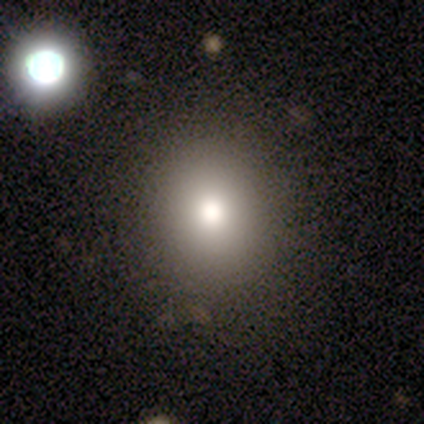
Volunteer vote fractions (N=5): This is clearly a smooth galaxy (80%). How rounded: likely round (75%). Merging: clearly none (100%).